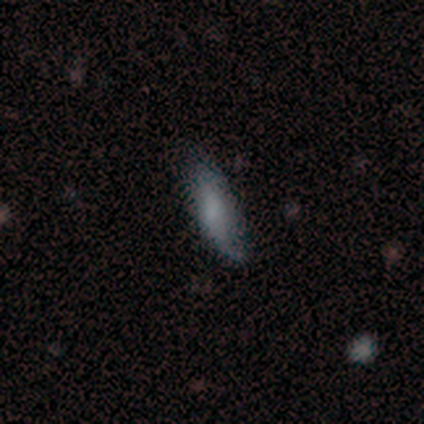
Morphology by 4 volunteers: smooth 50%, featured or disk 25%, star or artifact 25%. Down the decision tree: how rounded — in between (50%, tied with cigar-shaped); merging — minor disturbance (67%).